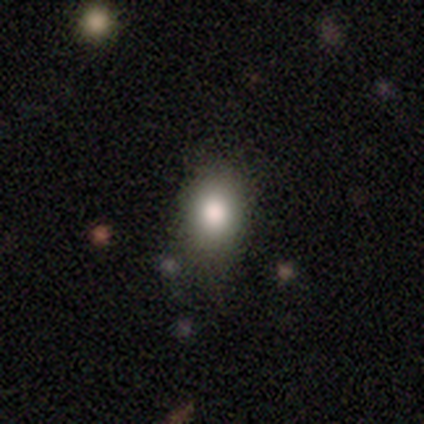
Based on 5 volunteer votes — smooth_or_featured: smooth (p=0.60) [alt: featured or disk p=0.40]
how_rounded: in between (p=1.00)
merging: none (p=0.40) [tied with: minor disturbance p=0.40]